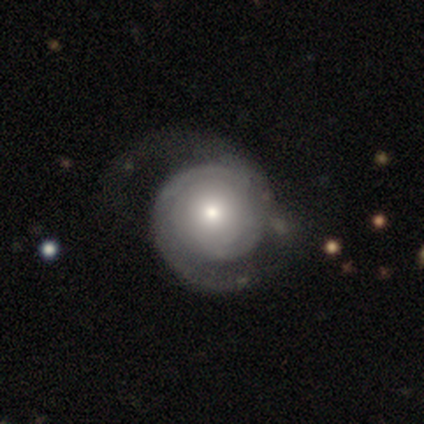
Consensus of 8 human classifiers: featured or disk 50%, smooth 25%, star or artifact 25%. Down the decision tree: edge-on disk — no (100%); bar — no (100%); spiral arms — yes (100%); spiral arm count — 2 (75%); spiral winding — tight (50%, tied with medium); bulge size — moderate (100%); merging — none (50%, tied with major disturbance).